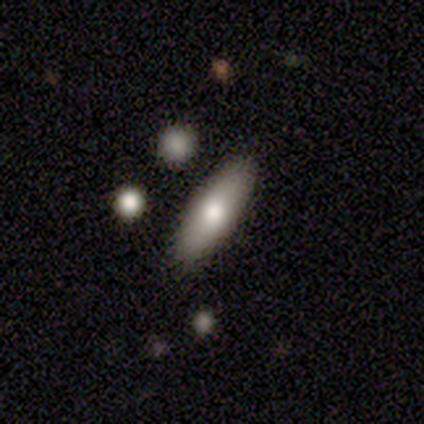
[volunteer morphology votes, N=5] Q: Smooth or featured?
A: smooth (60%); runner-up: featured or disk (40%)
Q: How rounded?
A: cigar-shaped (67%); runner-up: in between (33%)
Q: Merging?
A: none (100%)